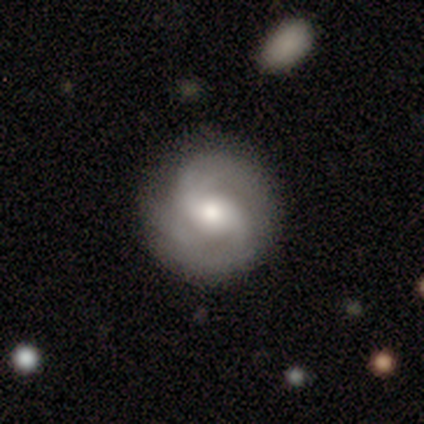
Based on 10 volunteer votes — featured or disk 80%, smooth 20%, star or artifact 0%. Down the decision tree: edge-on disk — no (100%); bar — weak (50%); spiral arms — yes (100%); spiral arm count — 2 (88%); spiral winding — medium (50%); bulge size — moderate (88%); merging — none (90%).